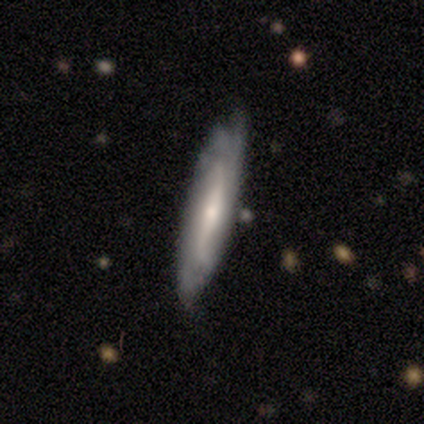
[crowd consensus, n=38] This appears to be a featured or disk galaxy (76%) with a strong bar (44%), 2 (43%, tied with can't tell) tight (57%) spiral arms (88%) and a small central bulge (50%). Merging: none (65%).